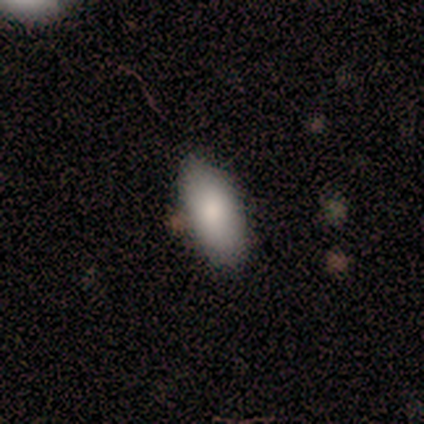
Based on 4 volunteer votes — Q: Smooth or featured?
A: smooth (75%); runner-up: featured or disk (25%)
Q: How rounded?
A: in between (100%)
Q: Merging?
A: none (75%); runner-up: minor disturbance (25%)